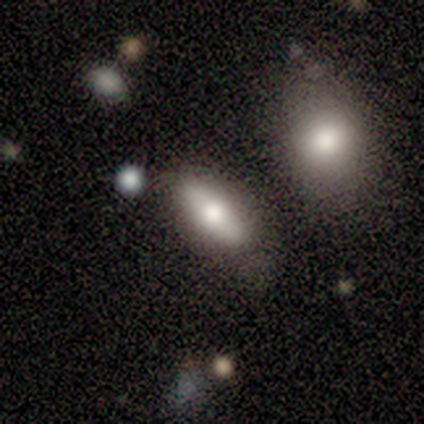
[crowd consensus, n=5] Q: Smooth or featured?
A: smooth (80%); runner-up: featured or disk (20%)
Q: How rounded?
A: in between (75%); runner-up: cigar-shaped (25%)
Q: Merging?
A: none (80%); runner-up: merger (20%)